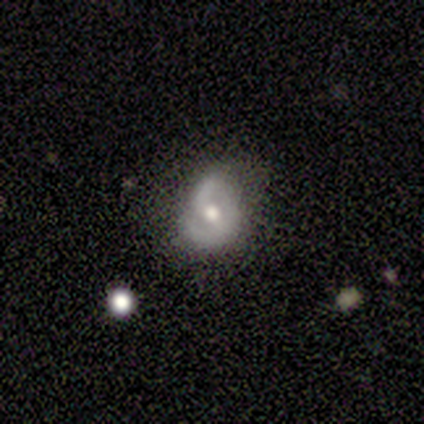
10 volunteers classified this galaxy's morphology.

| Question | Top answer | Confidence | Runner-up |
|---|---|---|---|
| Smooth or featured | featured or disk | 100% | — |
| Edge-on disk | no | 100% | — |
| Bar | no | 50% | weak (40%) |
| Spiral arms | yes | 70% | no (30%) |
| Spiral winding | medium | 57% | tight (29%) |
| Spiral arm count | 2 | 86% | 1 (14%) |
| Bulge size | moderate | 90% | large (10%) |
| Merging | minor disturbance | 50% | none (40%) |